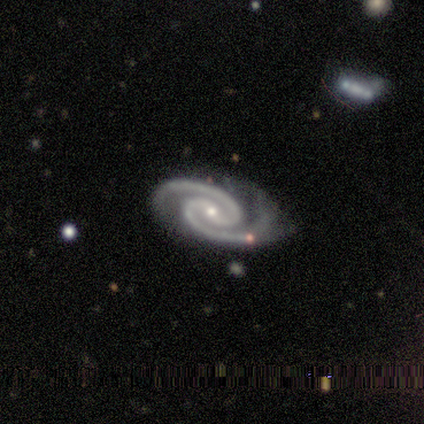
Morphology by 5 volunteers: smooth_or_featured: featured or disk (p=0.80) [alt: star or artifact p=0.20]
disk_edge_on: no (p=1.00)
bar: strong (p=0.50) [alt: weak p=0.25]
has_spiral_arms: yes (p=1.00)
spiral_winding: medium (p=1.00)
spiral_arm_count: 2 (p=1.00)
bulge_size: small (p=1.00)
merging: none (p=0.50) [tied with: minor disturbance p=0.50]